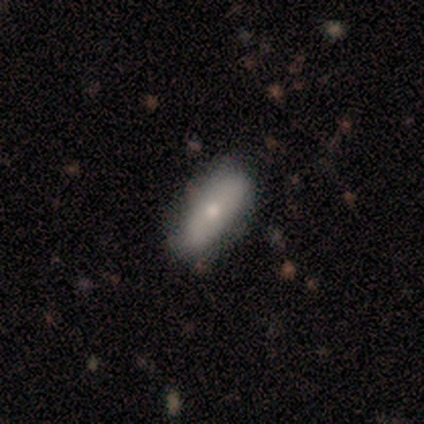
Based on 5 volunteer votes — smooth-or-featured: smooth: 80% | featured or disk: 20% | star or artifact: 0%
  how-rounded: in between: 75% | cigar-shaped: 25% | round: 0%
  merging: none: 100% | minor disturbance: 0% | major disturbance: 0% | merger: 0%